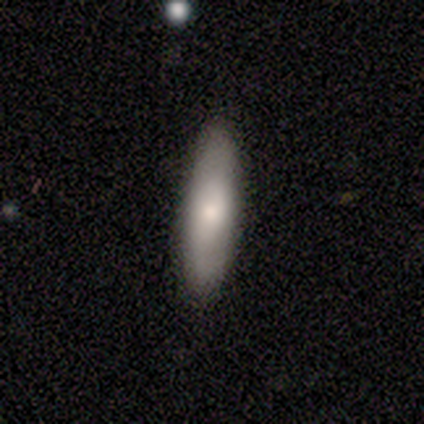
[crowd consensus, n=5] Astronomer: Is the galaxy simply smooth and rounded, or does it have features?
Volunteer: smooth — 80%.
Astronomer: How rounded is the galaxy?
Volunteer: in between — 50%, tied with cigar-shaped at 50%.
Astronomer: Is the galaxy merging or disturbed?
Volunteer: none — 100%.